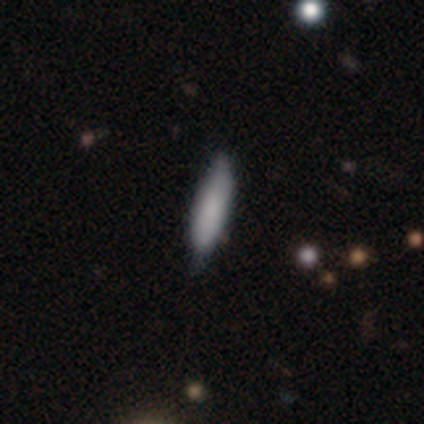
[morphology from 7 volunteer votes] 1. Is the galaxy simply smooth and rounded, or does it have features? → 100% smooth, 0% featured or disk, 0% star or artifact.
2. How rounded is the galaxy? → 57% cigar-shaped, 43% in between, 0% round.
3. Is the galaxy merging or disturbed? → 57% none, 43% minor disturbance, 0% major disturbance, 0% merger.